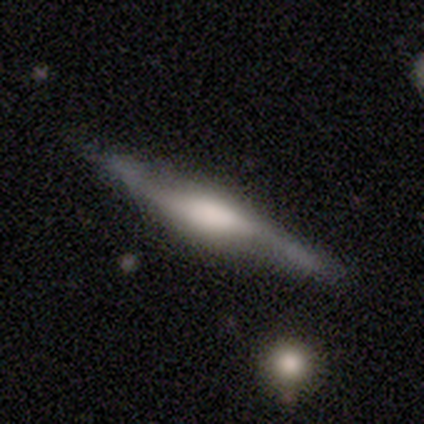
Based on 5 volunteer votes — smooth-or-featured: featured or disk: 80% | smooth: 20% | star or artifact: 0%
  disk-edge-on: yes: 75% | no: 25%
    edge-on-bulge: boxy: 67% | rounded: 33% | none: 0%
  merging: none: 60% | minor disturbance: 20% | major disturbance: 20% | merger: 0%